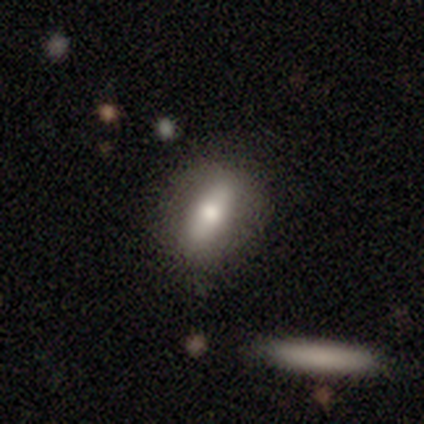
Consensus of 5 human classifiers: A smooth galaxy with no disk features (60%) that is in between round and cigar-shaped (67%). Merging: none (80%).